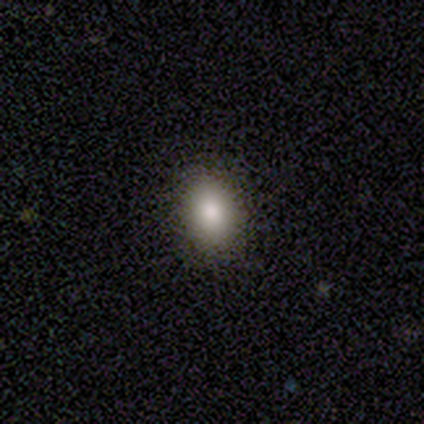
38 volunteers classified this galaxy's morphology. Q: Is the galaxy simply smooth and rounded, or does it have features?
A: smooth — 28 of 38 (74%).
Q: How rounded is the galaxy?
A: in between — 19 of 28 (68%).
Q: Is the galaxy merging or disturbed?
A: none — 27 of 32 (84%).